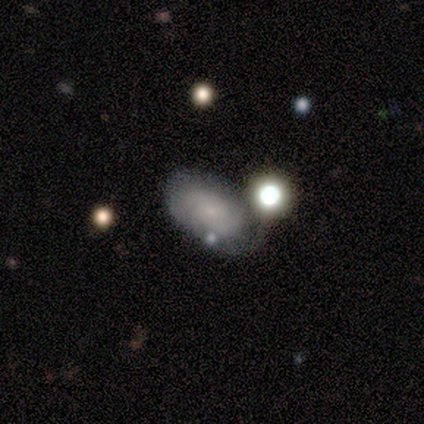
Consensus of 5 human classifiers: smooth_or_featured: featured or disk (p=0.60) [alt: smooth p=0.20]
disk_edge_on: no (p=1.00)
bar: weak (p=1.00)
has_spiral_arms: yes (p=1.00)
spiral_winding: loose (p=0.67) [alt: medium p=0.33]
spiral_arm_count: 2 (p=0.67) [alt: can't tell p=0.33]
bulge_size: small (p=1.00)
merging: none (p=1.00)